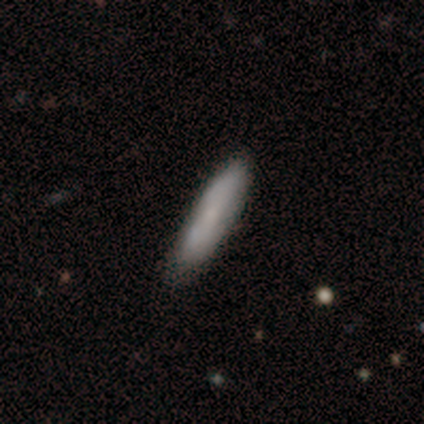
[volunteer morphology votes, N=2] Volunteers were most divided on "smooth or featured" (2-way tie): smooth: 50%, featured or disk: 50%, star or artifact: 0%. More confident: how rounded — cigar-shaped (100%); merging — none (100%).